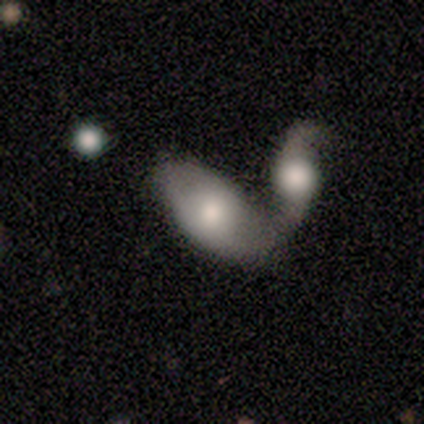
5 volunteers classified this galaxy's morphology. This appears to be a smooth galaxy with no disk features (80%) that is in between round and cigar-shaped (75%). Merging: none (40%, tied with merger).